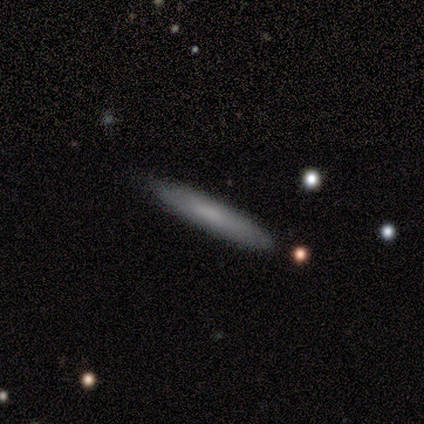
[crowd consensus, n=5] smooth_or_featured: smooth (p=0.80) [alt: featured or disk p=0.20]
how_rounded: cigar-shaped (p=1.00)
merging: none (p=1.00)